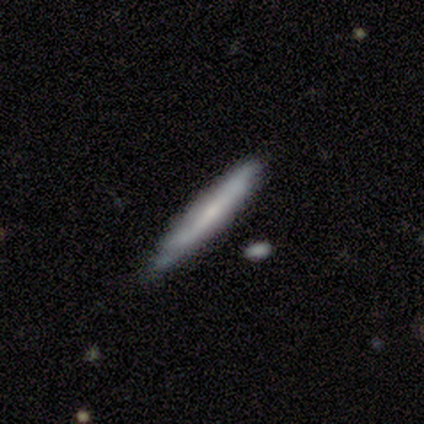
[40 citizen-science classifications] Volunteers were most divided on "smooth or featured": featured or disk: 52%, smooth: 45%, star or artifact: 2%. More confident: edge-on bulge — none (88%); edge-on disk — yes (81%); merging — none (72%).